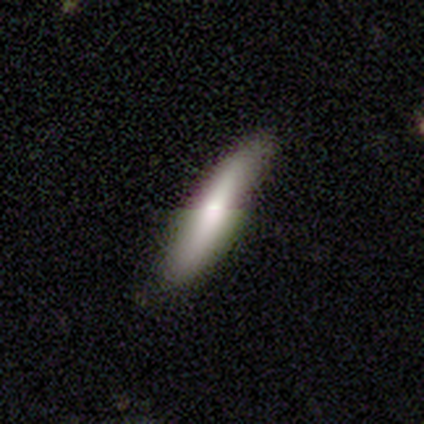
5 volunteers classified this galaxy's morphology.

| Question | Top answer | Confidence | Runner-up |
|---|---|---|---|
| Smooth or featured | smooth | 60% | featured or disk (40%) |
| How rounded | cigar-shaped | 100% | — |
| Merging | none | 60% | minor disturbance (40%) |